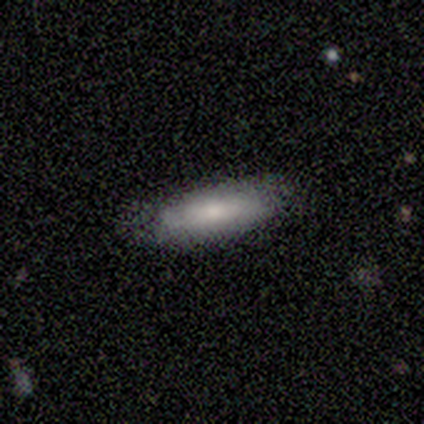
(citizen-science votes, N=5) Overall: smooth (80%). How rounded: in between (50%, tied with cigar-shaped). Merging: none (80%).